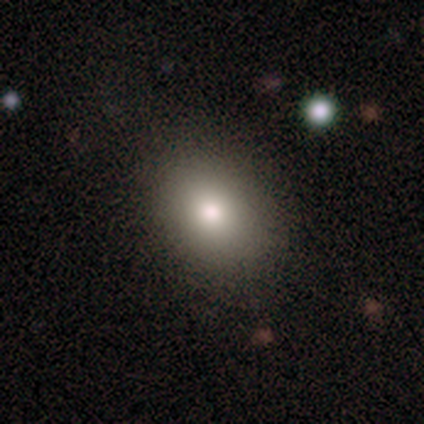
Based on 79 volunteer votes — smooth 85%, featured or disk 8%, star or artifact 8%. Down the decision tree: how rounded — in between (67%); merging — none (45%).